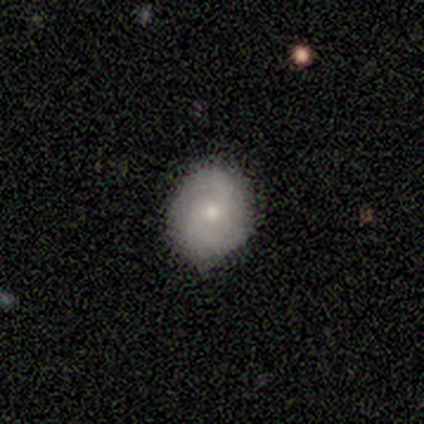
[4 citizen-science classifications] Morphology: type=smooth (50%, tied with featured or disk); roundness=round (100%); merging=none (50%).